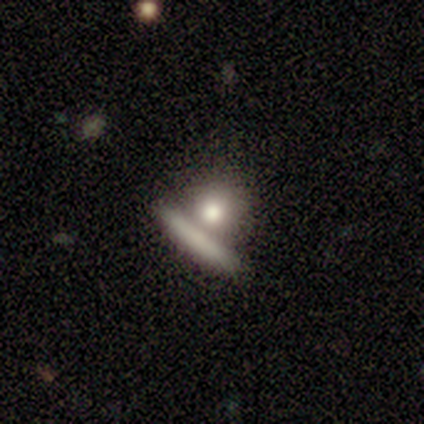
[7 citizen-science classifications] smooth 57%, featured or disk 43%, star or artifact 0%. Down the decision tree: how rounded — round (75%); merging — none (57%).